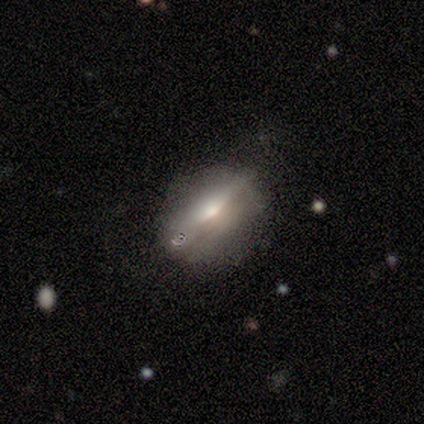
Q: Smooth or featured?
A: featured or disk (80%); runner-up: smooth (20%)
Q: Edge-on disk?
A: yes (75%); runner-up: no (25%)
Q: Edge-on bulge?
A: rounded (100%)
Q: Merging?
A: none (80%); runner-up: minor disturbance (20%)